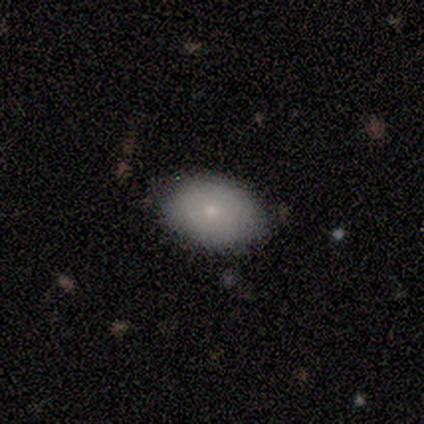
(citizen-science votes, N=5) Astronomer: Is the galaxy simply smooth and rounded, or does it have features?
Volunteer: smooth — 60% (runner-up: featured or disk, 40%).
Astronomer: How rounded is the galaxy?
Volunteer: in between — 100%.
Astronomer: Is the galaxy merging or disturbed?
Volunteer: none — 100%.